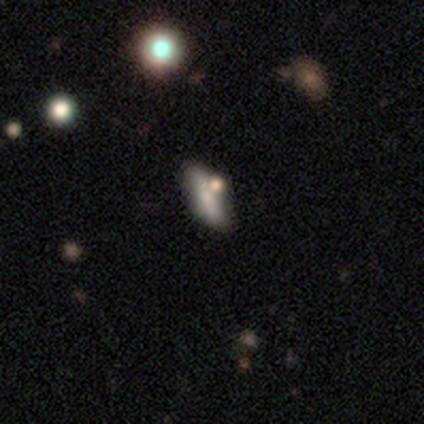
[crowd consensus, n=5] Volunteers were most divided on "spiral winding" (2-way tie): tight: 50%, medium: 50%, loose: 0%; "spiral arm count" (2-way tie): 2: 50%, 4: 50%, 1: 0%, 3: 0%, more than 4: 0%, can't tell: 0%; "bulge size" (2-way tie): moderate: 50%, small: 50%, dominant: 0%, large: 0%, none: 0%. More confident: bar — weak (100%); spiral arms — yes (100%); merging — none (100%); edge-on disk — no (67%); smooth or featured — featured or disk (60%).